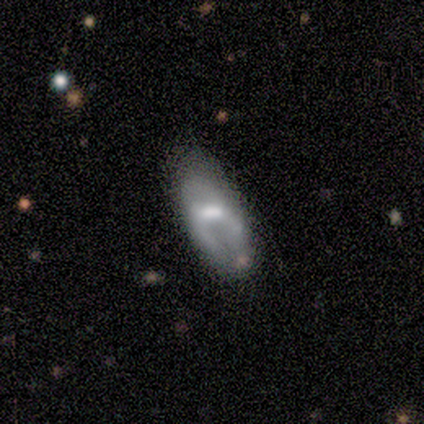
Smooth or featured: featured or disk — 60% (smooth — 40%)
Edge-on disk: no — 100%
Bar: strong — 67% (weak — 33%)
Spiral arms: yes — 67% (no — 33%)
Spiral winding: tight — 50% (tied with loose — 50%)
Spiral arm count: 2 — 100%
Bulge size: moderate — 67% (small — 33%)
Merging: none — 40% (tied with minor disturbance — 40%)